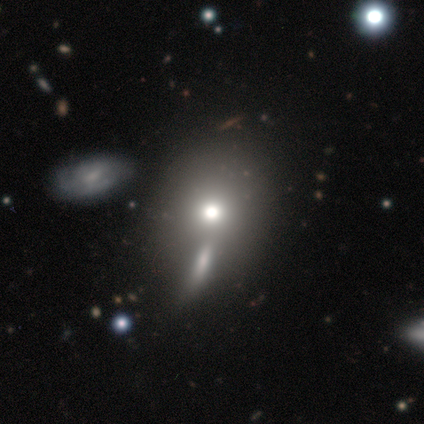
This appears to be a smooth galaxy with no disk features (75%) that is round (67%). Merging: none (33%, tied with minor disturbance and merger).